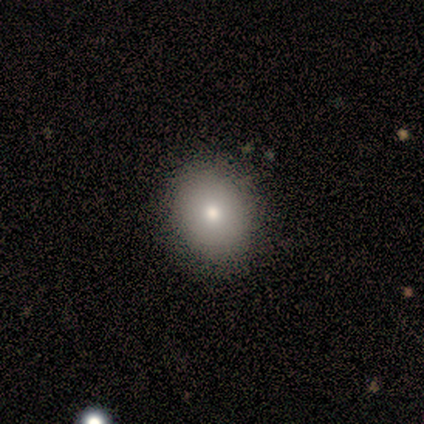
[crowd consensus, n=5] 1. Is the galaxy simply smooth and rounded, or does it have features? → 80% smooth, 20% star or artifact, 0% featured or disk.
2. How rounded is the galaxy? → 75% round, 25% in between, 0% cigar-shaped.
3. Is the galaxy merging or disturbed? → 75% none, 25% minor disturbance, 0% major disturbance, 0% merger.